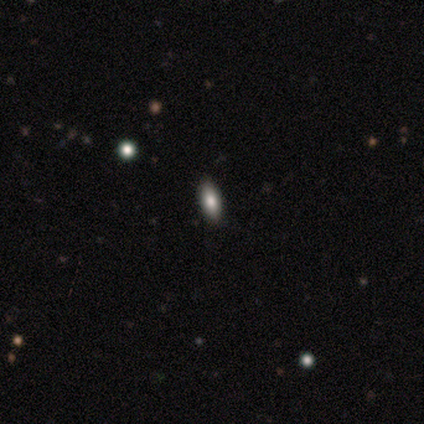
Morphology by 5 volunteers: smooth-or-featured: smooth: 80% | featured or disk: 20% | star or artifact: 0%
  how-rounded: in between: 50% (tied) | cigar-shaped: 50% (tied) | round: 0%
  merging: none: 100% | minor disturbance: 0% | major disturbance: 0% | merger: 0%